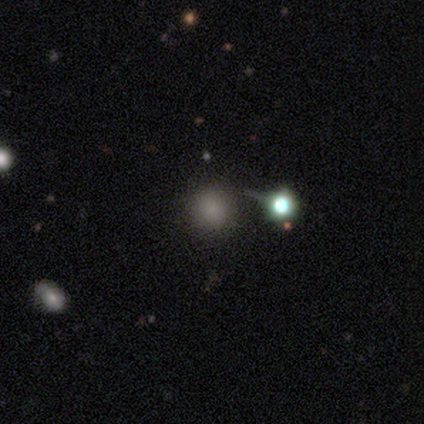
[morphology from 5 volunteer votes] Smooth or featured? smooth (60%)
How rounded? round (100%)
Merging? minor disturbance (67%)